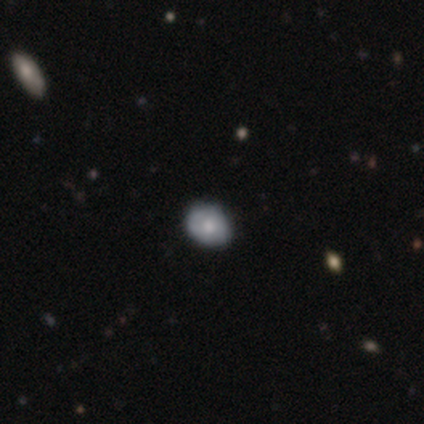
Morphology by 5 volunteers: Smooth or featured? smooth (60%)
How rounded? round (67%)
Merging? none (100%)